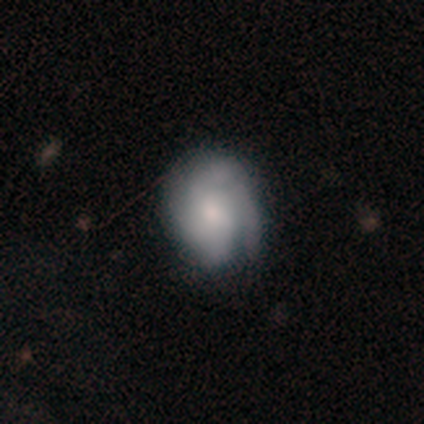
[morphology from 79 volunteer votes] smooth-or-featured: featured or disk: 66% | smooth: 32% | star or artifact: 3%
  disk-edge-on: no: 98% | yes: 2%
    bar: no: 67% | weak: 33% | strong: 0%
    has-spiral-arms: yes: 94% | no: 6%
      spiral-winding: tight: 62% | medium: 29% | loose: 8%
      spiral-arm-count: can't tell: 31% | 2: 21% | 4: 21% | 3: 17% | 1: 10% | more than 4: 0%
    bulge-size: moderate: 59% | small: 20% | large: 10% | none: 8% | dominant: 4%
  merging: none: 32% | minor disturbance: 13% | major disturbance: 5% | merger: 0%